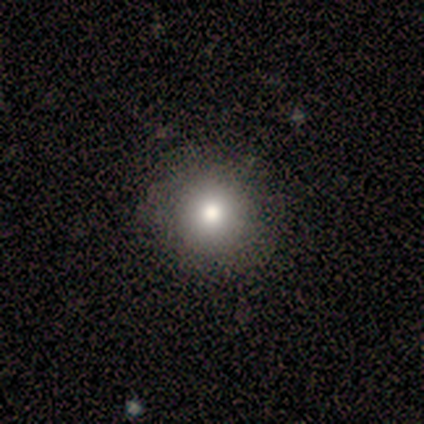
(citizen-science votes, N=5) Volunteers were most divided on "how rounded": round: 75%, in between: 25%, cigar-shaped: 0%. More confident: smooth or featured — smooth (80%); merging — none (75%).